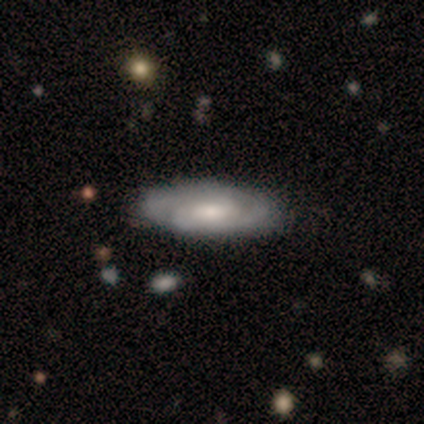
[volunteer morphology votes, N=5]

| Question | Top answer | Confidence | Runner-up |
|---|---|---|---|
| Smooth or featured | featured or disk | 100% | — |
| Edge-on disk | no | 80% | yes (20%) |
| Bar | strong | 50% | tied: no (50%) |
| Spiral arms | yes | 100% | — |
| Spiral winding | tight | 50% | medium (25%) |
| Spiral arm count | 2 | 75% | can't tell (25%) |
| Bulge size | moderate | 50% | large (25%) |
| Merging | none | 60% | minor disturbance (40%) |